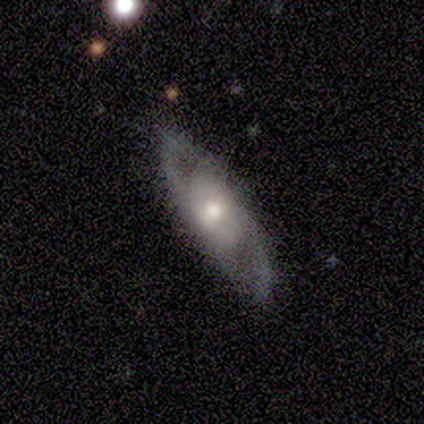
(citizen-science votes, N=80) Smooth or featured? featured or disk (82%)
Edge-on disk? no (86%)
Bar? no (67%)
Spiral arms? yes (67%)
Spiral winding? medium (55%)
Spiral arm count? 2 (76%)
Bulge size? moderate (63%)
Merging? none (78%)